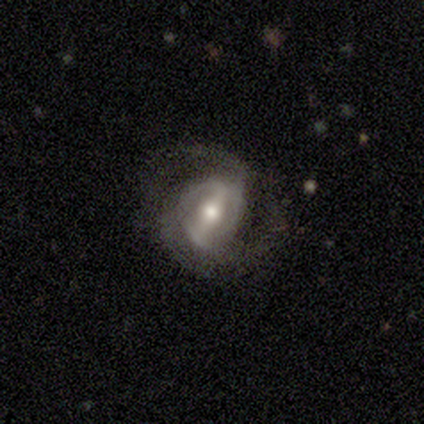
Volunteers were most divided on "bar": strong: 59%, weak: 32%, no: 8%. More confident: spiral arms — yes (100%); smooth or featured — featured or disk (97%); edge-on disk — no (97%); merging — none (72%); spiral arm count — 2 (62%); bulge size — moderate (62%); spiral winding — medium (59%).